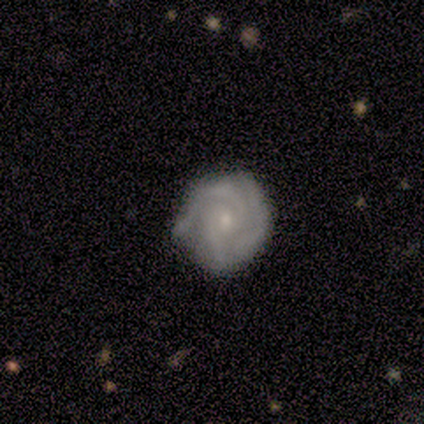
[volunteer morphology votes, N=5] smooth_or_featured: featured or disk (p=0.60) [alt: smooth p=0.40]
disk_edge_on: no (p=1.00)
bar: no (p=0.67) [alt: strong p=0.33]
has_spiral_arms: yes (p=1.00)
spiral_winding: tight (p=1.00)
spiral_arm_count: 2 (p=0.67) [alt: 3 p=0.33]
bulge_size: small (p=1.00)
merging: minor disturbance (p=0.60) [alt: none p=0.40]